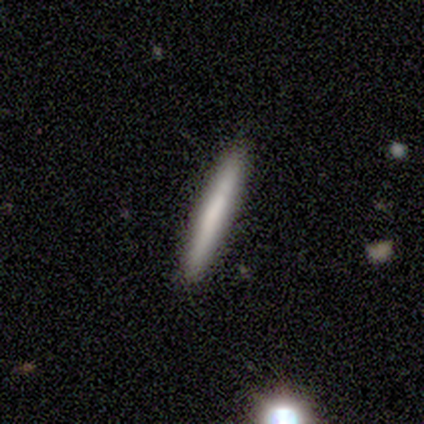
Smooth or featured: featured or disk — 60% (smooth — 40%)
Edge-on disk: yes — 100%
Edge-on bulge: none — 100%
Merging: none — 80% (minor disturbance — 20%)